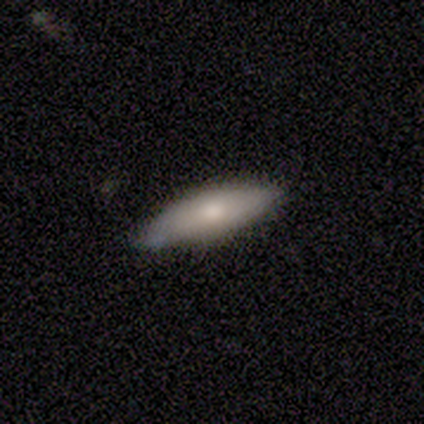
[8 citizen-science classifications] Overall: smooth (88%). How rounded: in between (57%; cigar-shaped 43%). Merging: none (88%).